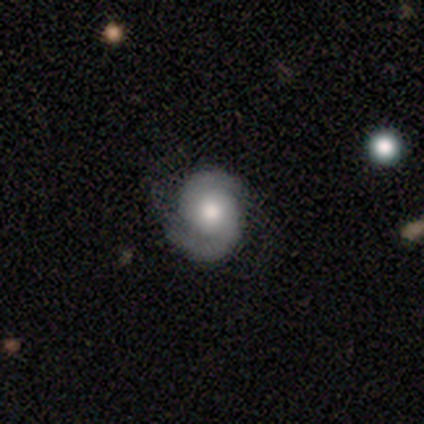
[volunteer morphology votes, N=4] smooth-or-featured: featured or disk: 100% | smooth: 0% | star or artifact: 0%
  disk-edge-on: no: 100% | yes: 0%
    bar: weak: 75% | no: 25% | strong: 0%
    has-spiral-arms: yes: 100% | no: 0%
      spiral-winding: tight: 50% (tied) | medium: 50% (tied) | loose: 0%
      spiral-arm-count: 2: 100% | 1: 0% | 3: 0% | 4: 0% | more than 4: 0% | can't tell: 0%
    bulge-size: moderate: 50% | large: 25% | small: 25% | dominant: 0% | none: 0%
  merging: none: 100% | minor disturbance: 0% | major disturbance: 0% | merger: 0%